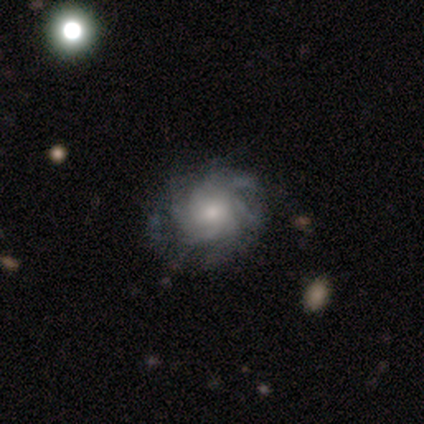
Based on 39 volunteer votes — Volunteers were most divided on "spiral winding": tight: 45%, medium: 39%, loose: 16%. Remaining: edge-on disk — no (97%); spiral arms — yes (94%); smooth or featured — featured or disk (87%); merging — none (86%); bar — no (73%); bulge size — moderate (58%); spiral arm count — can't tell (48%).